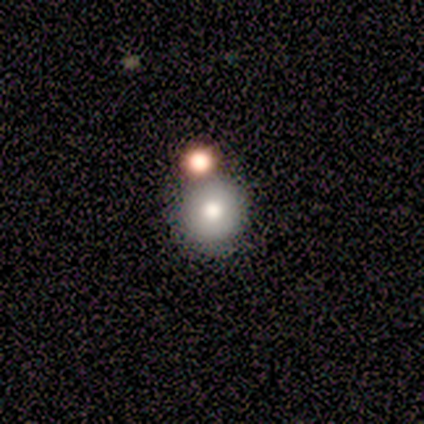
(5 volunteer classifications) Smooth or featured? 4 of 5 (80%) said smooth. How rounded? 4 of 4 (100%) said round. Merging? 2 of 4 (50%) said none.